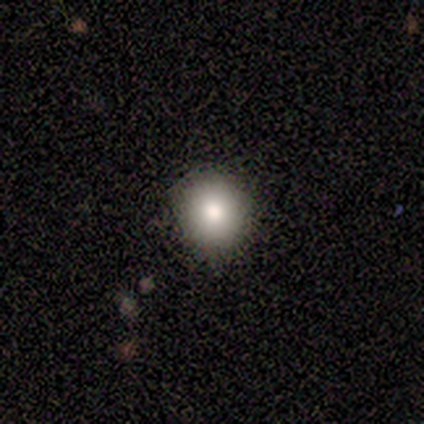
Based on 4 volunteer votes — This appears to be a smooth galaxy with no disk features (50%, tied with featured or disk) that is round (100%). Merging: none (100%).